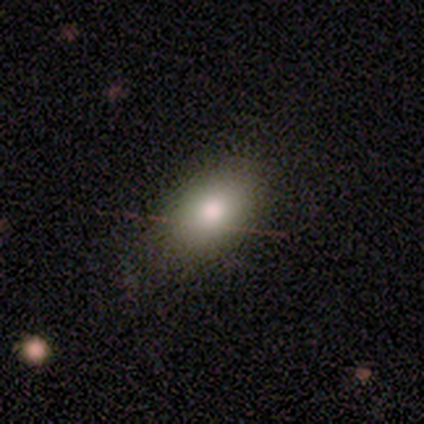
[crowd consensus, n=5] star or artifact 60%, smooth 40%, featured or disk 0%.